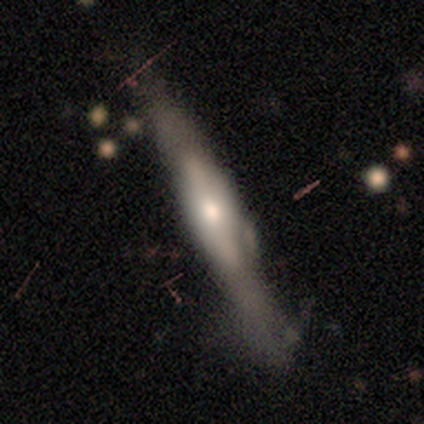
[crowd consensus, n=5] This appears to be a featured or disk galaxy (80%) viewed edge-on (75%) with a rounded central bulge (100%). Merging: none (40%, tied with minor disturbance).